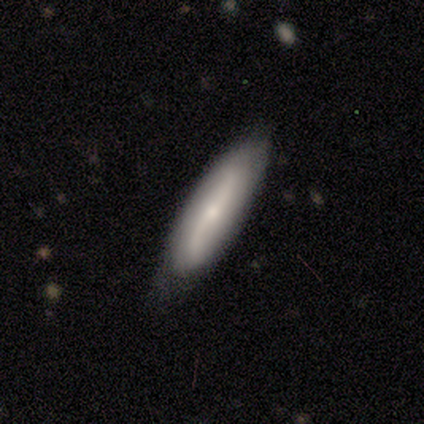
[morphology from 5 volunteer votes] Smooth or featured: featured or disk — 60% (smooth — 20%)
Edge-on disk: yes — 67% (no — 33%)
Edge-on bulge: rounded — 100%
Merging: none — 75% (minor disturbance — 25%)